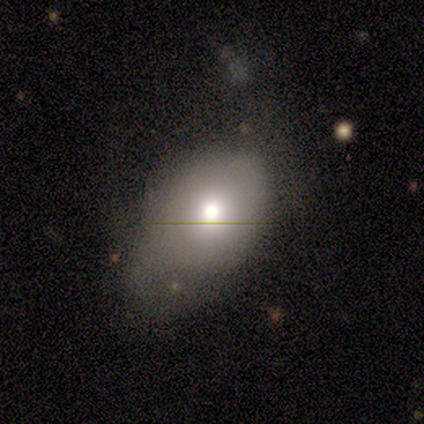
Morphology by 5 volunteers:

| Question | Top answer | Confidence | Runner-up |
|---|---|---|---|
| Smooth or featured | featured or disk | 60% | smooth (40%) |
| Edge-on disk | no | 100% | — |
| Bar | no | 100% | — |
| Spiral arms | no | 100% | — |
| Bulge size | moderate | 100% | — |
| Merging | minor disturbance | 60% | major disturbance (40%) |